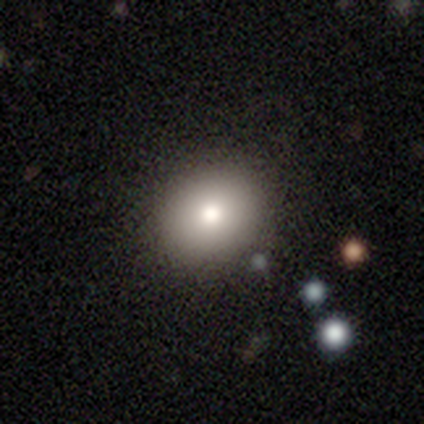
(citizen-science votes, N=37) Volunteers were most divided on "smooth or featured": smooth: 73%, featured or disk: 19%, star or artifact: 8%. More confident: merging — none (85%); how rounded — round (81%).